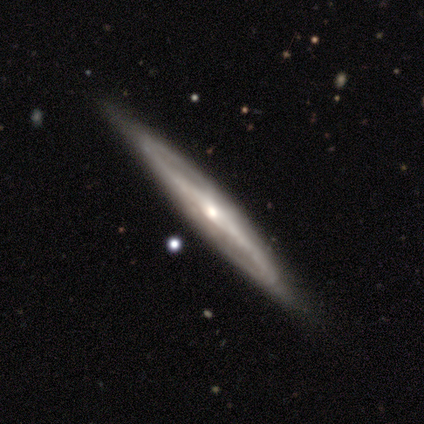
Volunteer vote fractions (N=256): smooth-or-featured: featured or disk: 68% | smooth: 22% | star or artifact: 10%
  disk-edge-on: yes: 89% | no: 11%
    edge-on-bulge: rounded: 66% | none: 33% | boxy: 1%
  merging: none: 73% | minor disturbance: 13% | merger: 2% | major disturbance: 2%